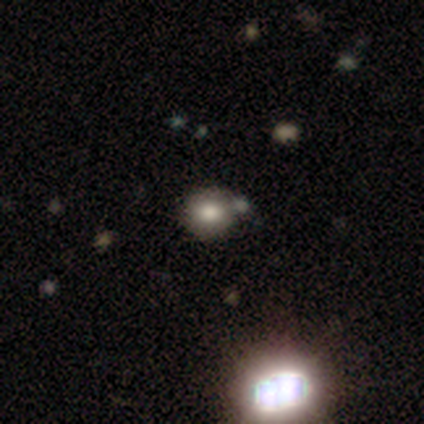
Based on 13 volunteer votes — Smooth or featured? 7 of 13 (54%) said smooth. How rounded? 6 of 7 (86%) said round. Merging? 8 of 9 (89%) said none.